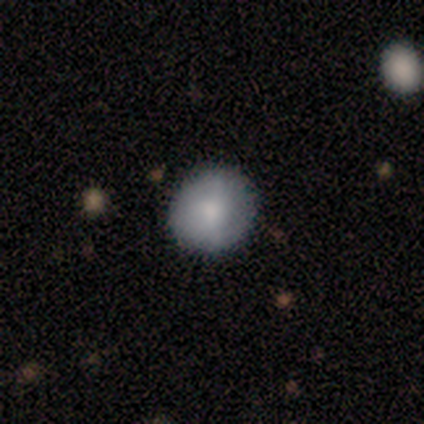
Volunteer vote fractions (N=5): Morphology: type=smooth (100%); roundness=round (100%); merging=none (80%).